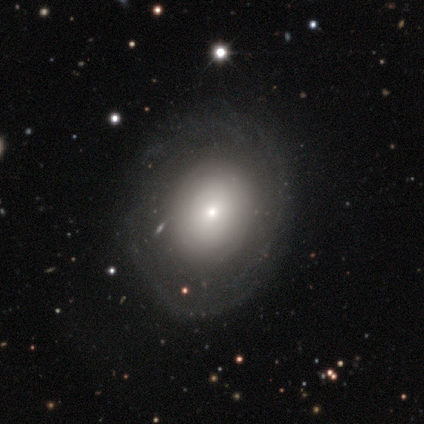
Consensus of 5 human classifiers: This appears to be a featured or disk galaxy (60%) with no bar (100%), tight (100%) spiral arms (50%, tied with no) and a small central bulge (100%). Merging: none (80%).